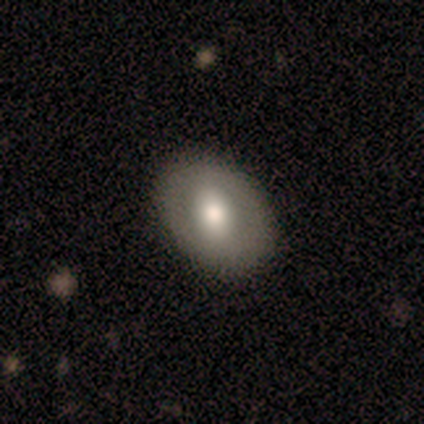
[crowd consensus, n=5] This appears to be a smooth galaxy with no disk features (60%) that is in between round and cigar-shaped (67%). Merging: none (100%).